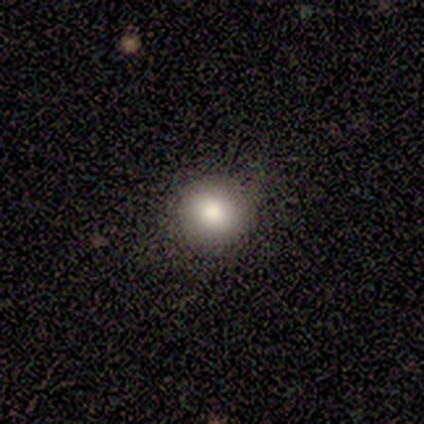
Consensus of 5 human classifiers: smooth-or-featured: smooth: 100% | featured or disk: 0% | star or artifact: 0%
  how-rounded: round: 100% | in between: 0% | cigar-shaped: 0%
  merging: none: 100% | minor disturbance: 0% | major disturbance: 0% | merger: 0%